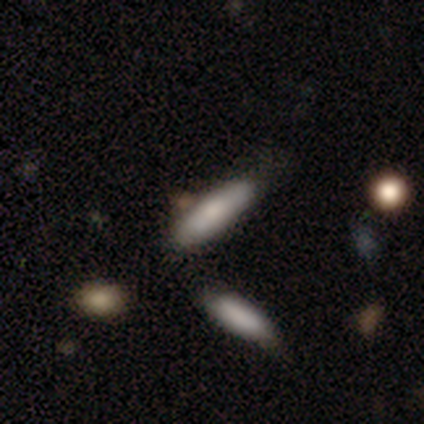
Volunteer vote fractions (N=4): smooth-or-featured: smooth: 75% | star or artifact: 25% | featured or disk: 0%
  how-rounded: cigar-shaped: 67% | in between: 33% | round: 0%
  merging: none: 67% | minor disturbance: 33% | major disturbance: 0% | merger: 0%